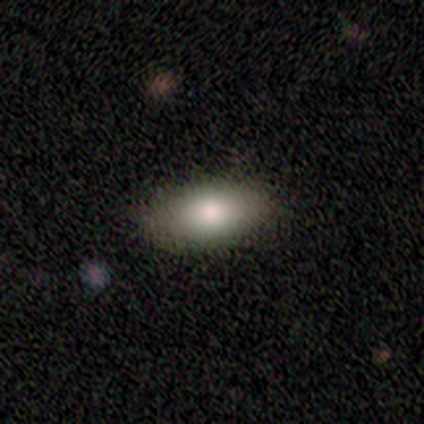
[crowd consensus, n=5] Morphology: type=smooth (100%); roundness=in between (80%); merging=none (100%).